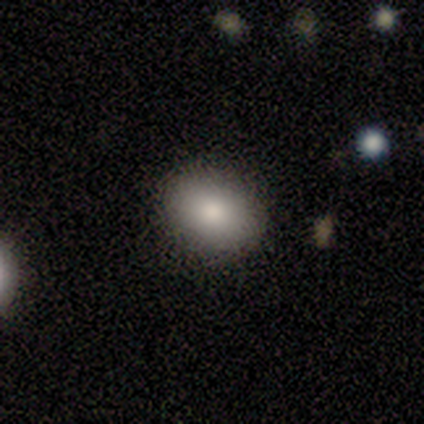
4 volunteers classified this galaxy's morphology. Smooth or featured? smooth (50%, tied with featured or disk)
How rounded? round (50%, tied with in between)
Merging? none (100%)